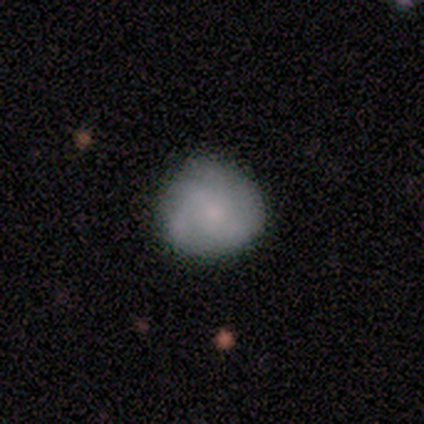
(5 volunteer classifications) Morphology: type=smooth (80%); roundness=round (100%); merging=none (80%).